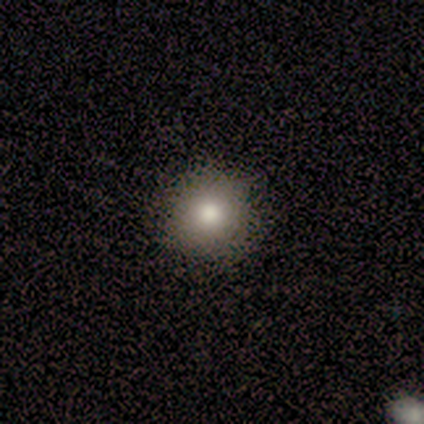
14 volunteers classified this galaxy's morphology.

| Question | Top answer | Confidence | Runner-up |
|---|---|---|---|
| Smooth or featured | smooth | 79% | star or artifact (21%) |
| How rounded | round | 91% | in between (9%) |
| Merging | none | 82% | minor disturbance (9%) |